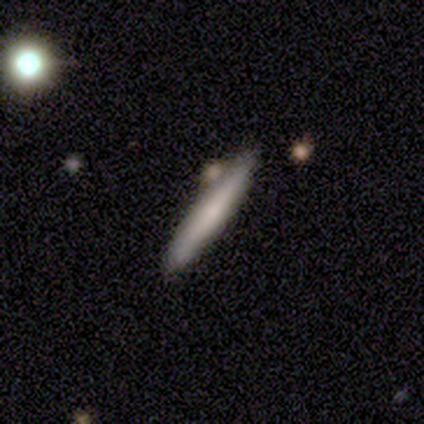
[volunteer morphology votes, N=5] A smooth galaxy with no disk features (40%, tied with star or artifact) that is cigar-shaped (100%).

Vote fractions:
- Smooth or featured? smooth: 40% (tied) / star or artifact: 40% (tied) / featured or disk: 20%
- How rounded? cigar-shaped: 100% / round: 0% / in between: 0%
- Merging? none: 100% / minor disturbance: 0% / major disturbance: 0% / merger: 0%